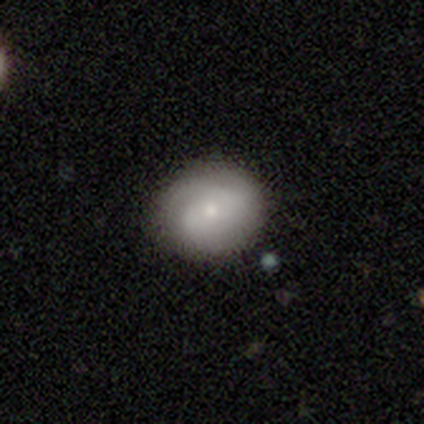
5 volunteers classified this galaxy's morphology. This appears to be a smooth galaxy with no disk features (100%) that is round (80%). Merging: none (100%).